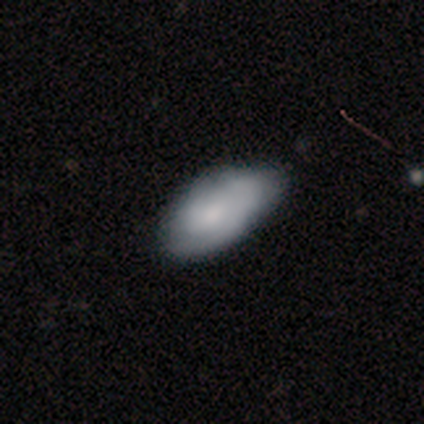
Volunteers were most divided on "merging" (2-way tie): none: 30%, minor disturbance: 30%, major disturbance: 5%, merger: 0%. More confident: how rounded — in between (96%); smooth or featured — smooth (74%).